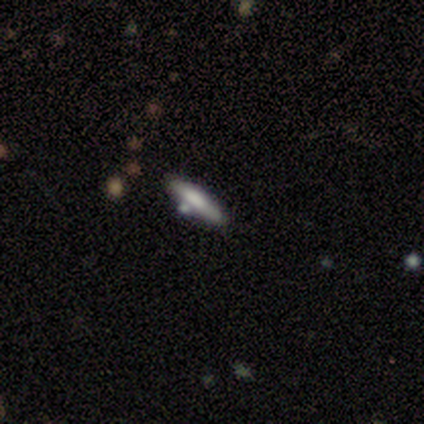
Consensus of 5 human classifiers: smooth 60%, featured or disk 40%, star or artifact 0%. Down the decision tree: how rounded — cigar-shaped (100%); merging — none (80%).